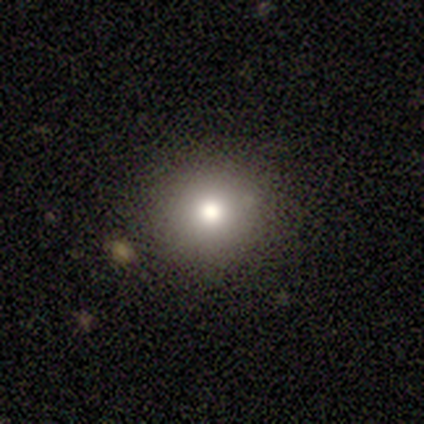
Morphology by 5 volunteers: smooth 60%, featured or disk 20%, star or artifact 20%. Down the decision tree: how rounded — round (100%); merging — none (100%).